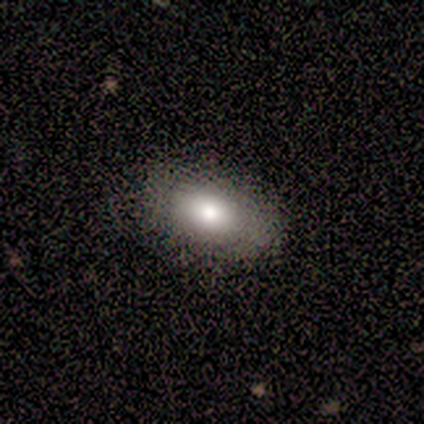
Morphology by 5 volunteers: Smooth or featured? 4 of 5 (80%) said smooth. How rounded? 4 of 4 (100%) said in between. Merging? 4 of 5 (80%) said none.